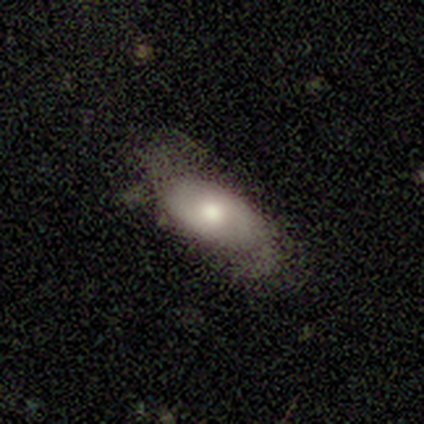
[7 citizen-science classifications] smooth_or_featured: smooth (p=0.57) [alt: featured or disk p=0.43]
how_rounded: in between (p=1.00)
merging: none (p=0.57) [alt: minor disturbance p=0.29]